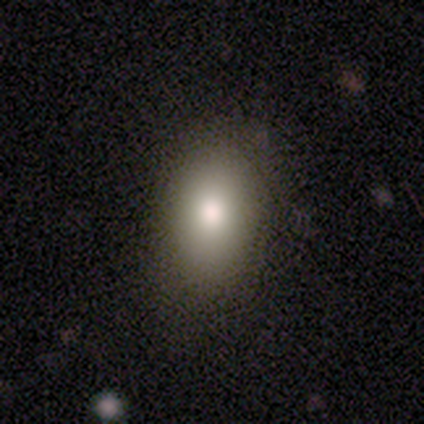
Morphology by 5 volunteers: Overall: smooth (100%). How rounded: in between (100%). Merging: none (80%).